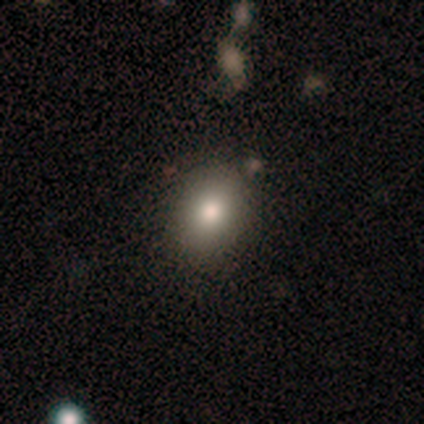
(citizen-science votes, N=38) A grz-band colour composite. It shows a smooth galaxy with no disk features (76%) that is in between round and cigar-shaped (52%). Merging: none (94%).